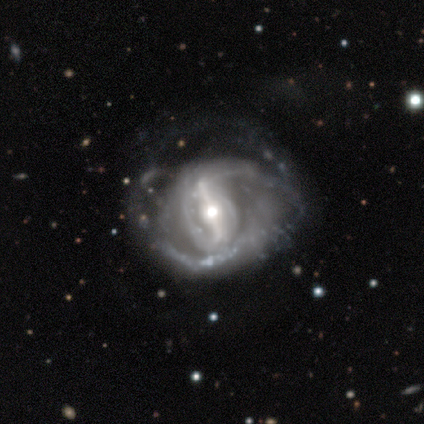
Morphology: type=featured or disk (92%); edge-on=no (100%); bar=strong (95%); spiral arms=yes (100%); winding=medium (38%); arm count=2 (62%); bulge=moderate (62%); merging=major disturbance (32%).